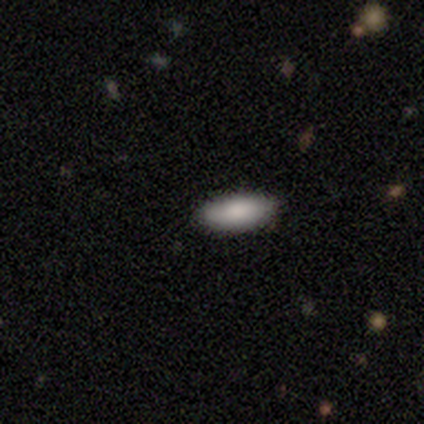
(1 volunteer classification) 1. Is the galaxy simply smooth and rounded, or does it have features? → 100% smooth, 0% featured or disk, 0% star or artifact.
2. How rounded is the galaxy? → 100% in between, 0% round, 0% cigar-shaped.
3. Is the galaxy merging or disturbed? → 100% none, 0% minor disturbance, 0% major disturbance, 0% merger.